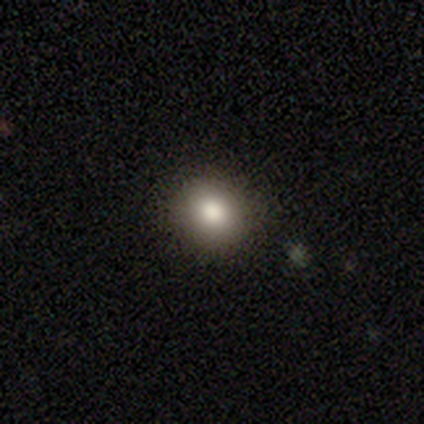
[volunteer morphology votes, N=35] Smooth or featured: smooth — 80% (star or artifact — 14%)
How rounded: round — 89% (in between — 11%)
Merging: none — 90% (minor disturbance — 7%)